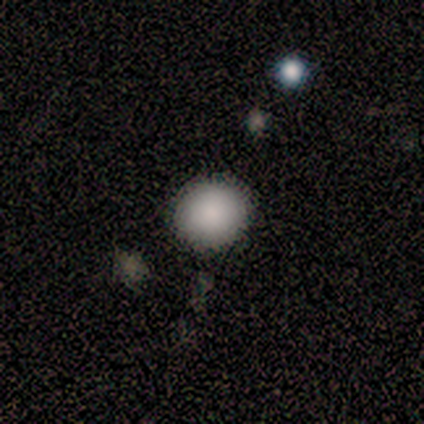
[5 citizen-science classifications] smooth_or_featured: smooth (p=1.00)
how_rounded: round (p=1.00)
merging: none (p=0.80) [alt: minor disturbance p=0.20]